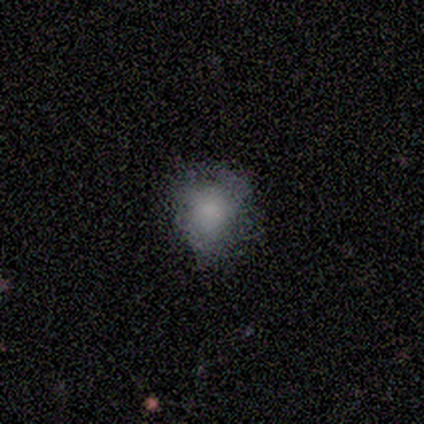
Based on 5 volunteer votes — Volunteers were most divided on "merging" (2-way tie): none: 40%, minor disturbance: 40%, major disturbance: 20%, merger: 0%. More confident: smooth or featured — smooth (100%); how rounded — in between (80%).